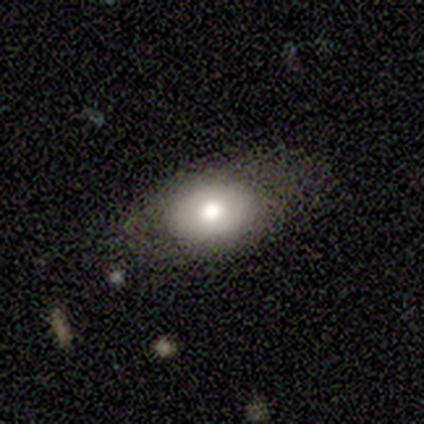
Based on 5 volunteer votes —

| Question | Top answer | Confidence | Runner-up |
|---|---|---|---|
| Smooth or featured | smooth | 60% | featured or disk (40%) |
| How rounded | in between | 100% | — |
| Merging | none | 100% | — |